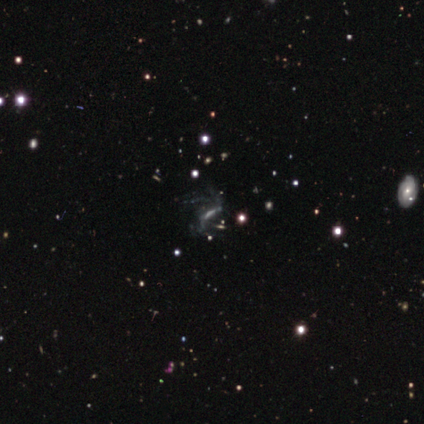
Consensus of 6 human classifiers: This appears to be a featured or disk galaxy (67%) with a strong bar (33%, tied with weak and no), no spiral arms (67%) and a moderate central bulge (67%). Merging: minor disturbance (50%, tied with major disturbance).